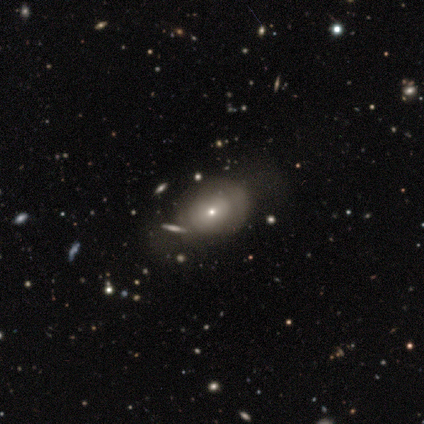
Overall: smooth (75%). How rounded: round (67%; in between 33%). Merging: minor disturbance (67%; none 33%).